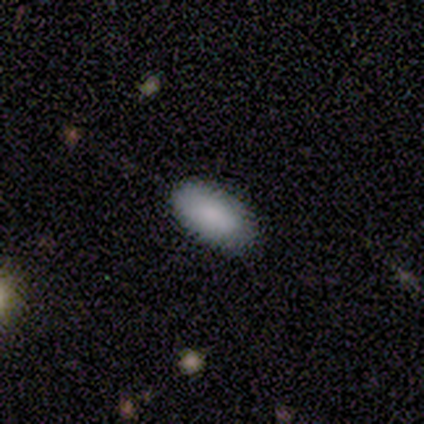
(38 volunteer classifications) Smooth or featured: smooth — 76% (star or artifact — 16%)
How rounded: in between — 86% (round — 7%)
Merging: none — 88% (minor disturbance — 12%)